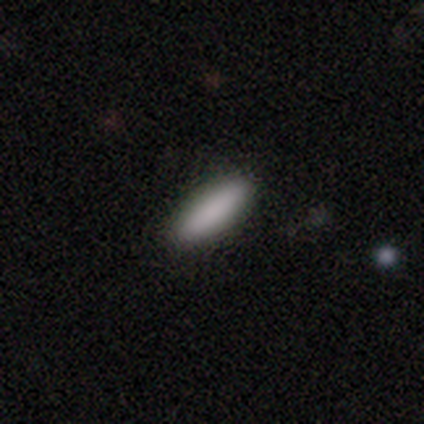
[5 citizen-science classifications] smooth 100%, featured or disk 0%, star or artifact 0%. Down the decision tree: how rounded — cigar-shaped (60%); merging — none (80%).